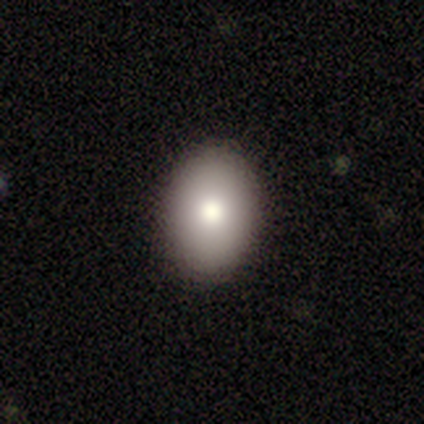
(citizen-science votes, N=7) Overall: smooth (100%). How rounded: in between (86%). Merging: none (86%).